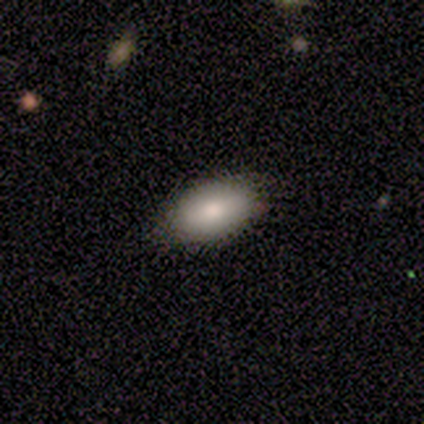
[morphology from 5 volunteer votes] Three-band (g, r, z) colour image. It shows a smooth galaxy with no disk features (80%) that is in between round and cigar-shaped (75%). Merging: none (80%).